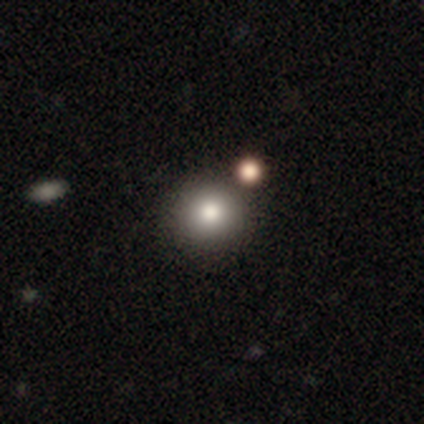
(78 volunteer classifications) smooth_or_featured: smooth (p=0.81) [alt: star or artifact p=0.12]
how_rounded: round (p=0.94) [alt: in between p=0.06]
merging: none (p=0.39) [alt: merger p=0.26]